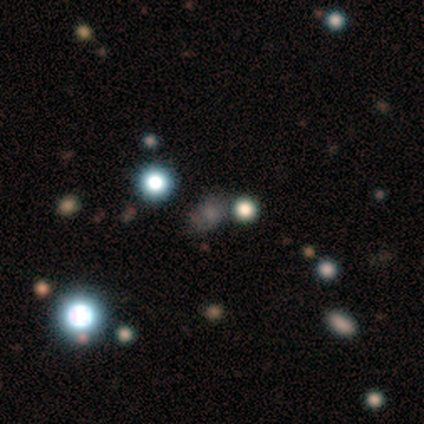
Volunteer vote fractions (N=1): Morphology: type=star or artifact (100%).